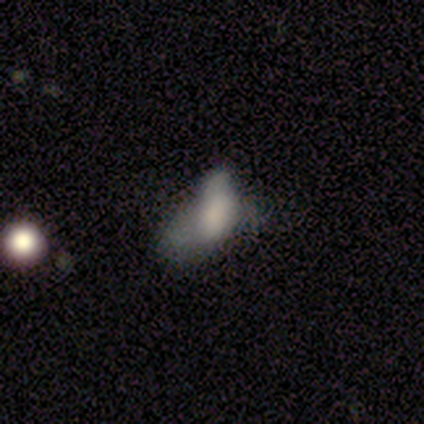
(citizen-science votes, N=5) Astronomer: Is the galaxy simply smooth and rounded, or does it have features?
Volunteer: smooth — 80%.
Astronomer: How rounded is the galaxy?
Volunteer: in between — 75%.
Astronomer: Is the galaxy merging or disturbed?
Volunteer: minor disturbance — 75%.